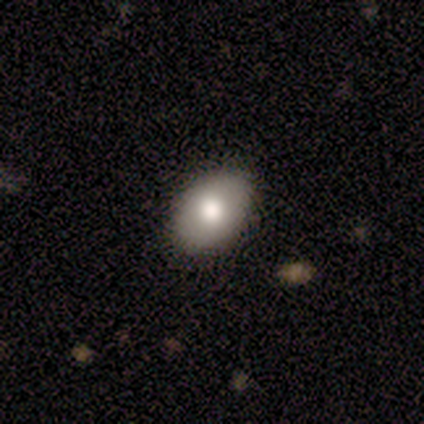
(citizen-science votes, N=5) A smooth galaxy with no disk features (80%) that is round (50%, tied with in between).

Vote fractions:
- Smooth or featured? smooth: 80% / featured or disk: 20% / star or artifact: 0%
- How rounded? round: 50% (tied) / in between: 50% (tied) / cigar-shaped: 0%
- Merging? none: 100% / minor disturbance: 0% / major disturbance: 0% / merger: 0%